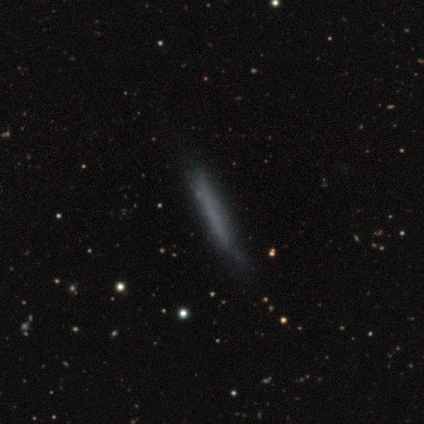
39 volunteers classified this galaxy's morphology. Volunteers were most divided on "merging": none: 62%, minor disturbance: 29%, major disturbance: 6%, merger: 3%. More confident: how rounded — cigar-shaped (100%); smooth or featured — smooth (62%).